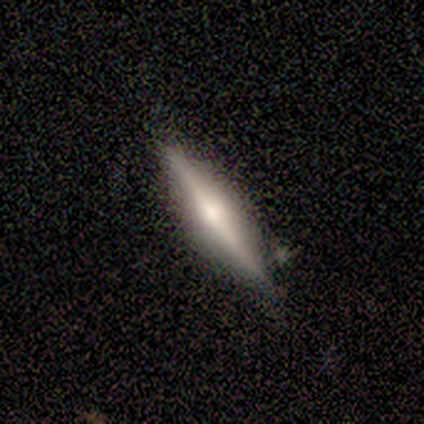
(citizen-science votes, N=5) smooth_or_featured: featured or disk (p=0.80) [alt: smooth p=0.20]
disk_edge_on: yes (p=1.00)
edge_on_bulge: rounded (p=0.75) [alt: boxy p=0.25]
merging: none (p=0.80) [alt: minor disturbance p=0.20]